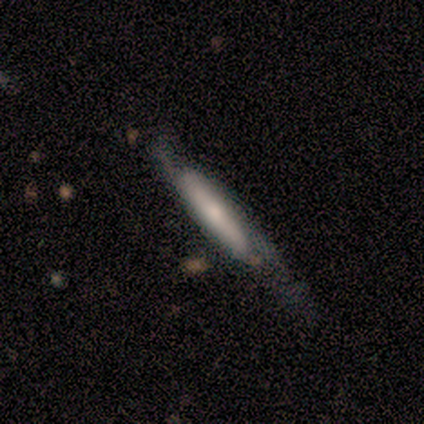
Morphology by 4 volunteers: type=featured or disk (100%); edge-on=yes (50%, tied with no); edge-on bulge=rounded (100%); merging=none (75%).